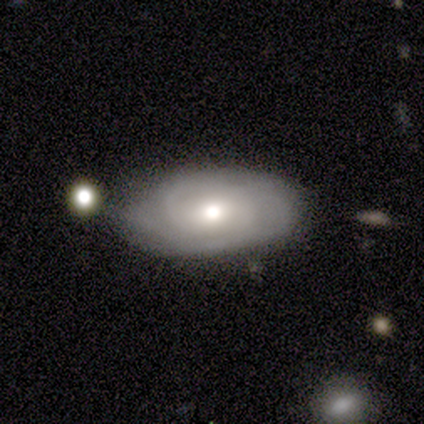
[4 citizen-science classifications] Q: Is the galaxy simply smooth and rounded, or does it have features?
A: smooth — 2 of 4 (50%, tied with featured or disk).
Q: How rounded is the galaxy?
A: round — 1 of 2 (50%, tied with in between).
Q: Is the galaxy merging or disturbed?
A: none — 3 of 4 (75%).